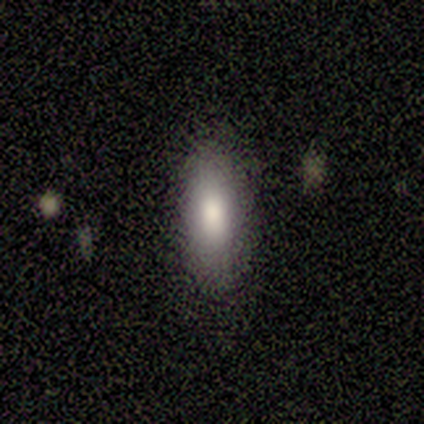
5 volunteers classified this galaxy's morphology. Smooth or featured: smooth — 100%
How rounded: in between — 60% (cigar-shaped — 40%)
Merging: none — 80% (minor disturbance — 20%)